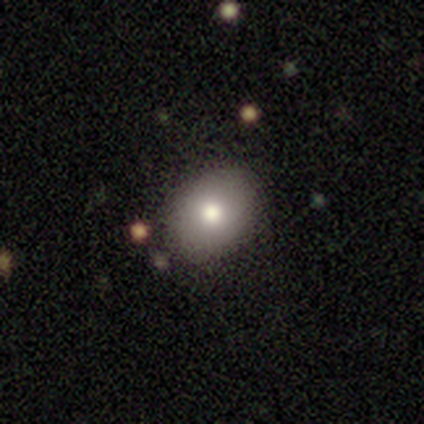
Smooth or featured: star or artifact — 67% (smooth — 33%)